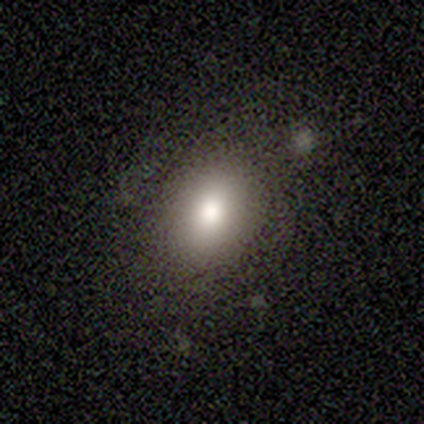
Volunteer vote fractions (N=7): Smooth or featured? 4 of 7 (57%) said smooth. How rounded? 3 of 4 (75%) said in between. Merging? 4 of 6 (67%) said none.